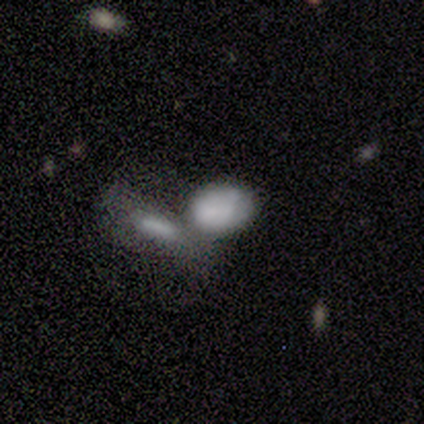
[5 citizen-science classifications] Smooth or featured? 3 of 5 (60%) said featured or disk. Edge-on disk? 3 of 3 (100%) said no. Bar? 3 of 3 (100%) said no. Spiral arms? 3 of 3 (100%) said no. Bulge size? 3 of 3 (100%) said none. Merging? 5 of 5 (100%) said merger.